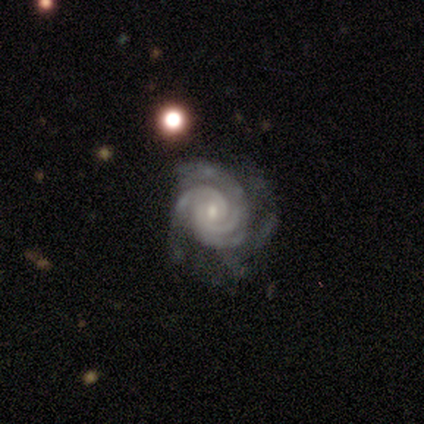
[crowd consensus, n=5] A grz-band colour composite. It shows a featured or disk galaxy (100%) with no bar (100%), 3 (60%) tight (60%) spiral arms (100%) and a small central bulge (100%). Merging: none (80%).